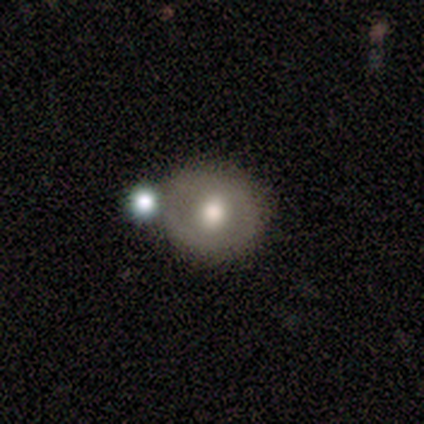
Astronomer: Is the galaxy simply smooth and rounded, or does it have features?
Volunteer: featured or disk — 100%.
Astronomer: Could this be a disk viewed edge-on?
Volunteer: no — 83%.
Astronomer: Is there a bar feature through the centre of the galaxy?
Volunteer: no — 100%.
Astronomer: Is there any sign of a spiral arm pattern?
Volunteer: no — 60% (runner-up: yes, 40%).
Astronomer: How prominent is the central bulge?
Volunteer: moderate — 60% (runner-up: large, 40%).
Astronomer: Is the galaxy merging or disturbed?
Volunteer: none — 67%.